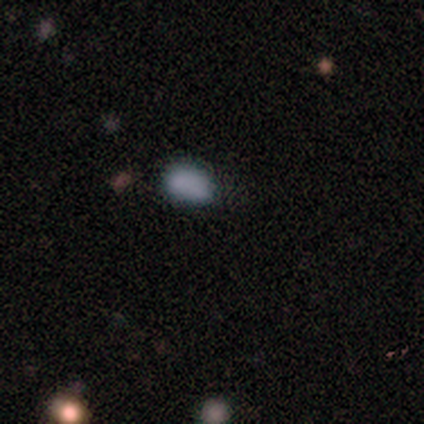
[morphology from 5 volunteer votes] This is clearly a smooth galaxy (80%). How rounded: clearly in between (100%). Merging: likely none (75%).